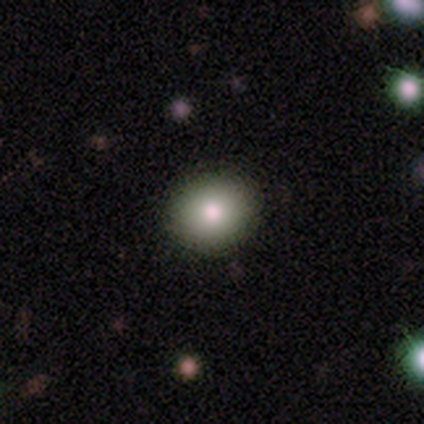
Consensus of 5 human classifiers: A smooth galaxy with no disk features (100%) that is round (80%).

Vote fractions:
- Smooth or featured? smooth: 100% / featured or disk: 0% / star or artifact: 0%
- How rounded? round: 80% / in between: 20% / cigar-shaped: 0%
- Merging? none: 100% / minor disturbance: 0% / major disturbance: 0% / merger: 0%